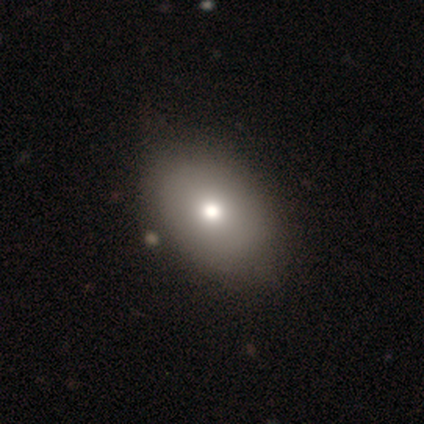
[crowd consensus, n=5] Morphology: type=smooth (40%, tied with featured or disk); roundness=in between (100%); merging=none (100%).